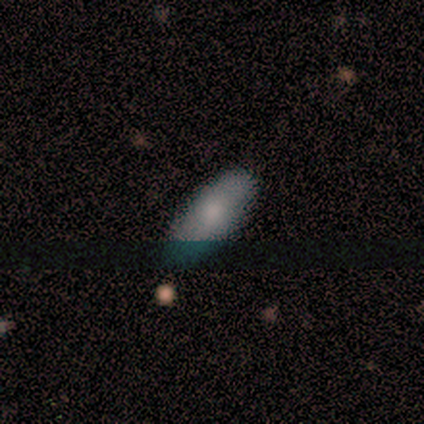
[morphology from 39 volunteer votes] Smooth or featured?
  - smooth: 77% *
  - star or artifact: 15%
  - featured or disk: 8%
How rounded?
  - in between: 70% *
  - cigar-shaped: 27%
  - round: 3%
Merging?
  - none: 76% *
  - minor disturbance: 18%
  - major disturbance: 3%
  - merger: 3%